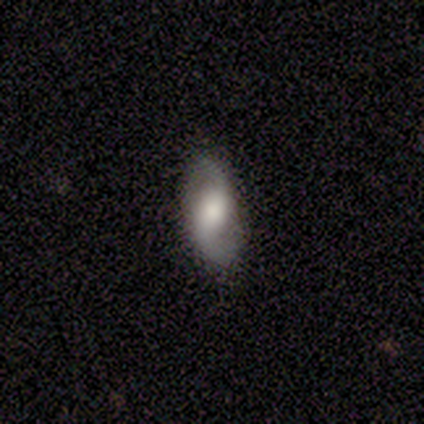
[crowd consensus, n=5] This is likely a smooth galaxy (60%). How rounded: likely in between (67%). Merging: likely none (60%).